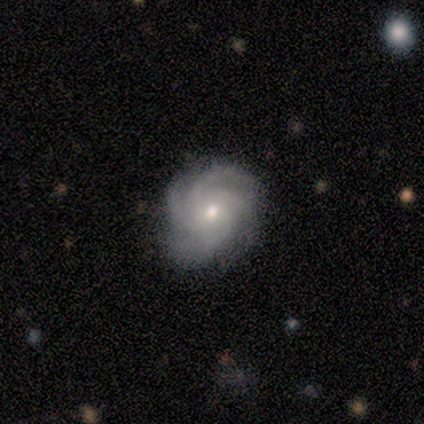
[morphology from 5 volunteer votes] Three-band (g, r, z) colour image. It shows a featured or disk galaxy (80%) with no bar (75%), 4 (75%) tight (100%) spiral arms (100%) and a small central bulge (75%). Merging: none (50%).